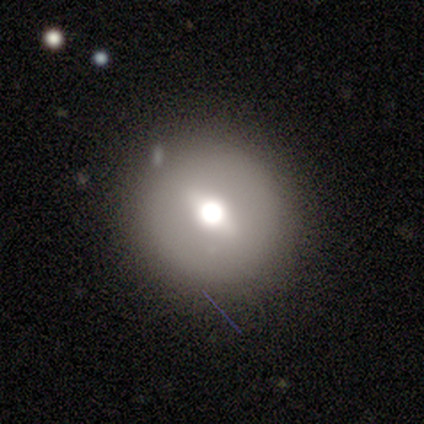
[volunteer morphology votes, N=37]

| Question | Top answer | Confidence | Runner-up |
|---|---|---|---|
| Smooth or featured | featured or disk | 54% | smooth (41%) |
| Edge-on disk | no | 80% | yes (20%) |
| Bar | weak | 44% | tied: no (44%) |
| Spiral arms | no | 94% | yes (6%) |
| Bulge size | moderate | 56% | large (25%) |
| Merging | none | 86% | minor disturbance (9%) |